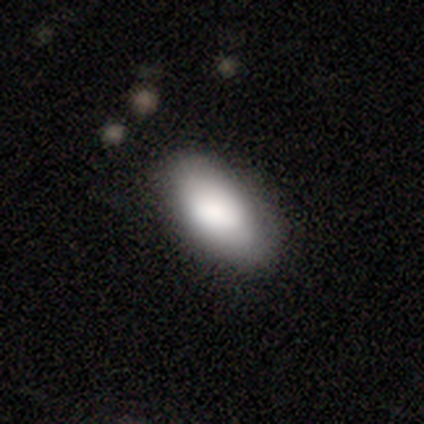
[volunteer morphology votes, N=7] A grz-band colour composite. It shows a smooth galaxy with no disk features (100%) that is in between round and cigar-shaped (100%). Merging: none (86%).